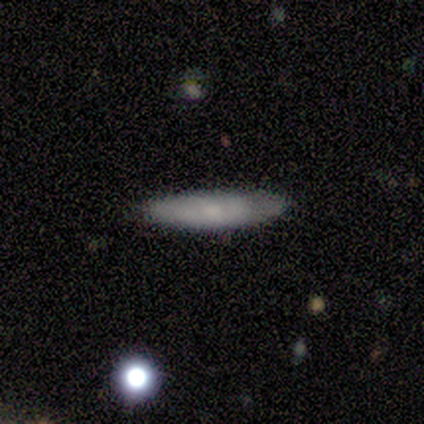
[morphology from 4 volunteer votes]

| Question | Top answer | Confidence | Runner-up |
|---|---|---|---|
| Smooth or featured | smooth | 100% | — |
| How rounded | cigar-shaped | 100% | — |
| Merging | none | 100% | — |